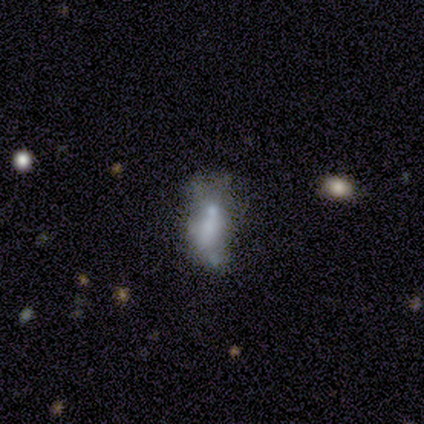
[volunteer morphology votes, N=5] Overall: featured or disk (100%). Edge-on disk: no (100%). Bar: no (100%). Spiral arms: no (100%). Bulge size: small (40%, tied with none). Merging: minor disturbance (40%; none 20%).